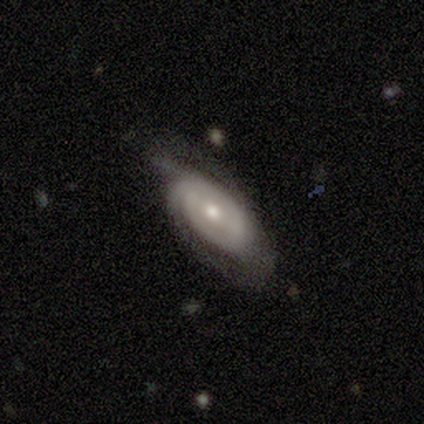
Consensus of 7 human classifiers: featured or disk 100%, smooth 0%, star or artifact 0%. Down the decision tree: edge-on disk — no (100%); bar — weak (43%, tied with no); spiral arms — yes (86%); spiral arm count — 1 (33%, tied with 2 and can't tell); spiral winding — medium (67%); bulge size — small (71%); merging — none (57%).